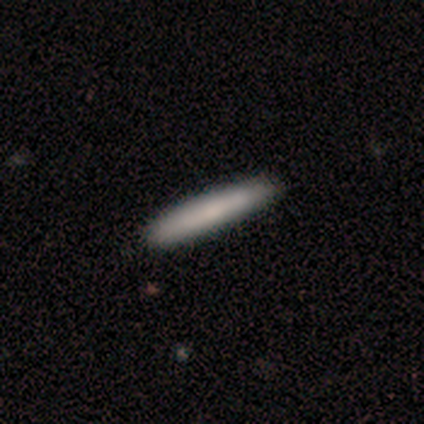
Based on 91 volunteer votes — smooth 81%, featured or disk 12%, star or artifact 7%. Down the decision tree: how rounded — cigar-shaped (100%); merging — none (87%).